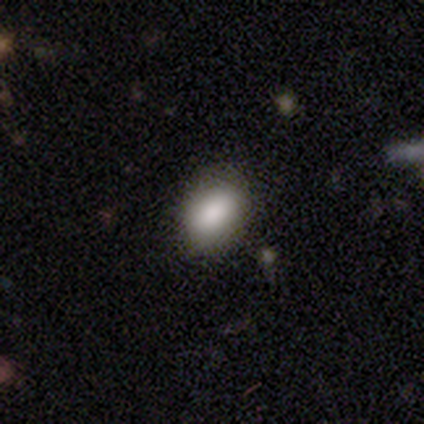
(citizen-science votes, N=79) A smooth galaxy with no disk features (92%) that is in between round and cigar-shaped (85%). Merging: none (45%).